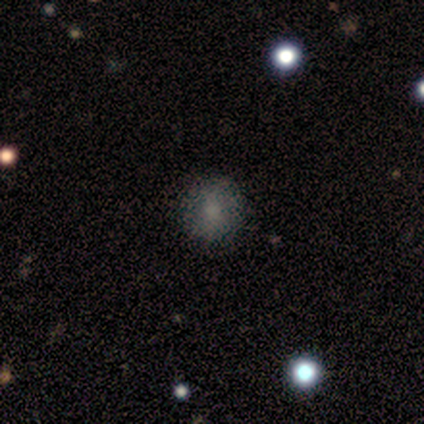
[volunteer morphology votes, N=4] smooth_or_featured: smooth (p=0.50) [tied with: featured or disk p=0.50]
how_rounded: round (p=1.00)
merging: none (p=0.75) [alt: minor disturbance p=0.25]